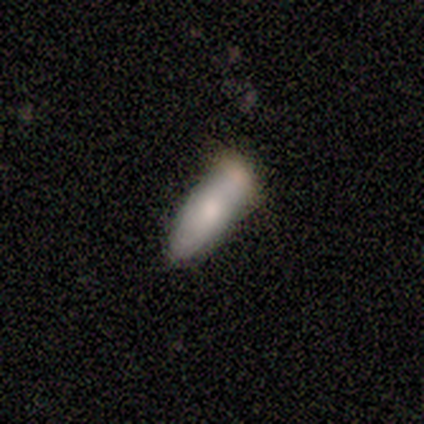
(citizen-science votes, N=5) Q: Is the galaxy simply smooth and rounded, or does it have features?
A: smooth — 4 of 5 (80%).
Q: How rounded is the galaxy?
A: in between — 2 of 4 (50%, tied with cigar-shaped).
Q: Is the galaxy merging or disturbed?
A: none — 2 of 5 (40%, tied with merger).